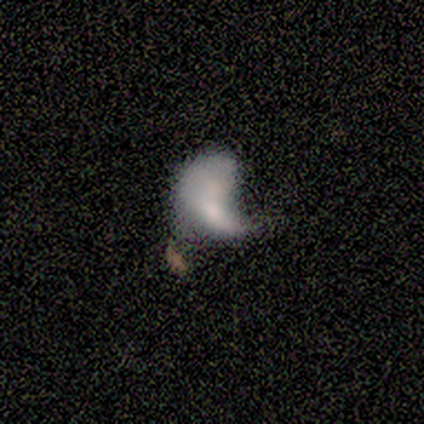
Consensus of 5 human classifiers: Smooth or featured?
  - featured or disk: 80% *
  - smooth: 20%
  - star or artifact: 0%
Edge-on disk?
  - no: 100% *
  - yes: 0%
Bar?
  - no: 100% *
  - strong: 0%
  - weak: 0%
Spiral arms?
  - no: 100% *
  - yes: 0%
Bulge size?
  - small: 50% *
  - dominant: 25%
  - moderate: 25%
  - large: 0%
  - none: 0%
Merging?
  - major disturbance: 60% *
  - minor disturbance: 20%
  - merger: 20%
  - none: 0%